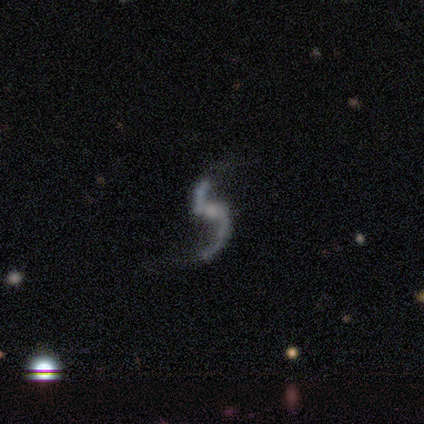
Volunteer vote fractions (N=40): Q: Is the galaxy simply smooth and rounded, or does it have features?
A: featured or disk — 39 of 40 (98%).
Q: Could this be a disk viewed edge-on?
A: no — 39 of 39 (100%).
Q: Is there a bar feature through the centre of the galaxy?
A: no — 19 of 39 (49%).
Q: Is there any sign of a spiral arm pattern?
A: yes — 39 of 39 (100%).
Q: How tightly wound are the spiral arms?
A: loose — 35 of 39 (90%).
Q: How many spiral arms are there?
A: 2 — 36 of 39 (92%).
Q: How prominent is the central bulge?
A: small — 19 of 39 (49%).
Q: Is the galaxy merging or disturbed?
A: none — 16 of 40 (40%).